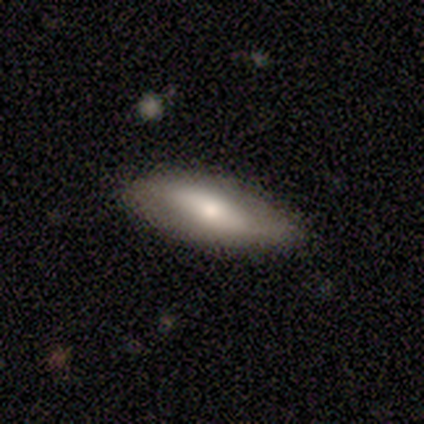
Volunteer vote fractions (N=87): Smooth or featured? 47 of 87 (54%) said smooth. How rounded? 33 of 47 (70%) said in between. Merging? 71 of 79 (90%) said none.